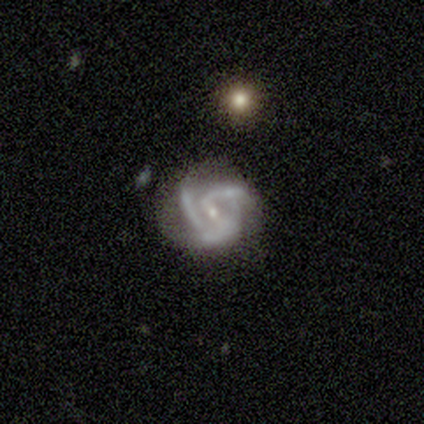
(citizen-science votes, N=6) smooth_or_featured: featured or disk (p=0.83) [alt: star or artifact p=0.17]
disk_edge_on: no (p=1.00)
bar: weak (p=0.60) [alt: no p=0.40]
has_spiral_arms: yes (p=1.00)
spiral_winding: medium (p=0.60) [alt: tight p=0.40]
spiral_arm_count: 2 (p=0.60) [alt: 3 p=0.40]
bulge_size: small (p=0.80) [alt: moderate p=0.20]
merging: minor disturbance (p=0.80) [alt: none p=0.20]